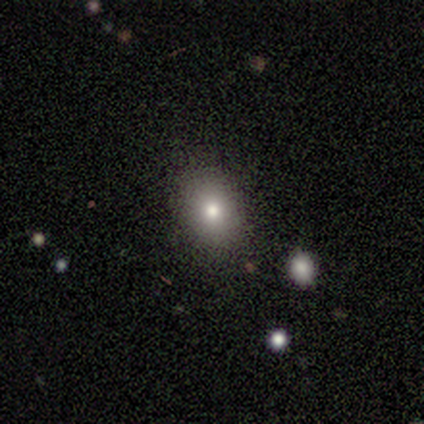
Morphology: type=smooth (74%); roundness=in between (71%); merging=none (88%).